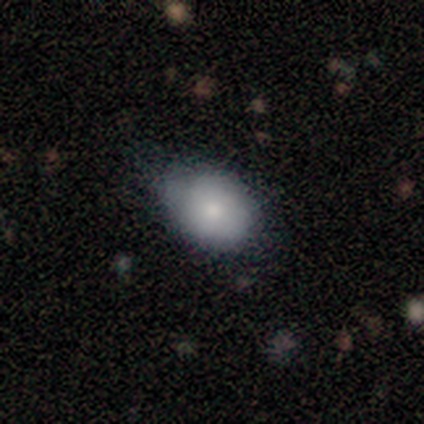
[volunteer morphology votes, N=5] Overall: smooth (80%). How rounded: in between (75%). Merging: none (50%; minor disturbance 25%).